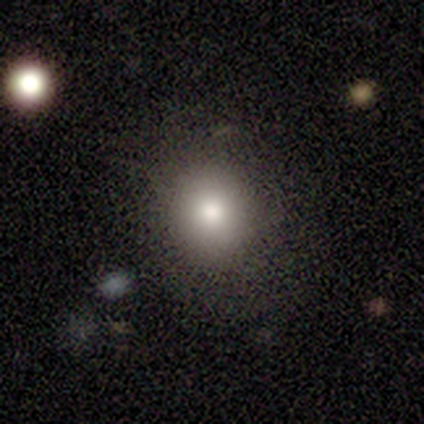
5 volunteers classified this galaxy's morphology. smooth 80%, featured or disk 20%, star or artifact 0%. Down the decision tree: how rounded — round (50%); merging — none (80%).